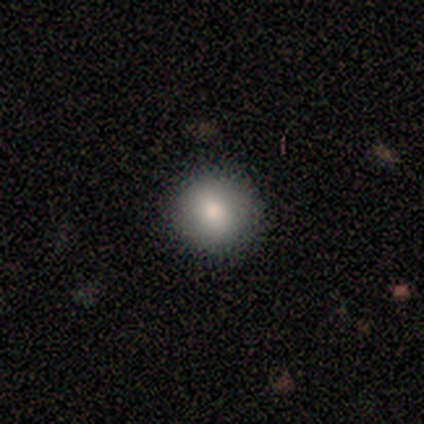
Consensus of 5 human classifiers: A smooth galaxy with no disk features (100%) that is round (100%). Merging: none (100%).